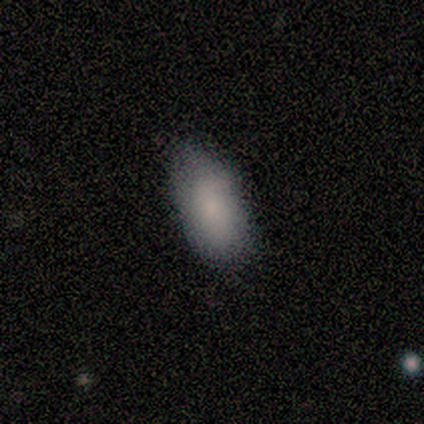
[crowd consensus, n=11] Q: Smooth or featured?
A: smooth (91%); runner-up: featured or disk (9%)
Q: How rounded?
A: in between (90%); runner-up: cigar-shaped (10%)
Q: Merging?
A: none (82%); runner-up: minor disturbance (18%)